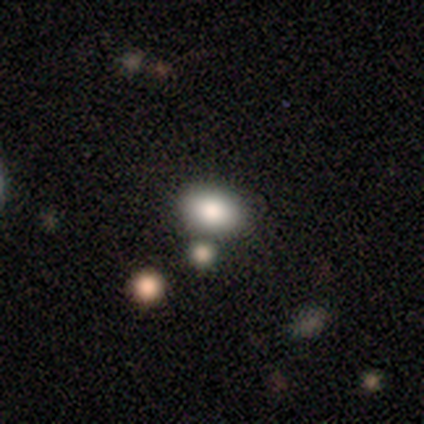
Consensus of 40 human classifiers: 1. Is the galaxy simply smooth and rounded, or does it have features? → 75% smooth, 18% star or artifact, 8% featured or disk.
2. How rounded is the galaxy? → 67% in between, 30% round, 3% cigar-shaped.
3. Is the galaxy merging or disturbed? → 82% none, 12% merger, 6% minor disturbance, 0% major disturbance.